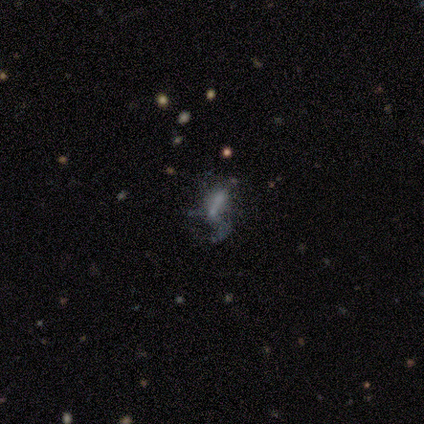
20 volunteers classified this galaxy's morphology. This is possibly a featured or disk galaxy (55%). It is clearly not viewed edge-on (91%). Bar: likely no (70%). Spiral arm pattern: clearly no (90%). Central bulge: likely none (70%). Merging: marginally none (43%).